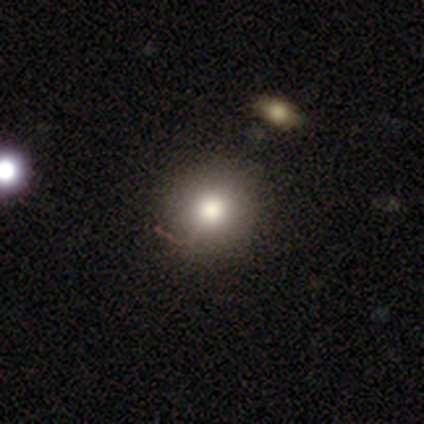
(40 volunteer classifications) smooth-or-featured: smooth: 85% | featured or disk: 8% | star or artifact: 8%
  how-rounded: round: 91% | in between: 9% | cigar-shaped: 0%
  merging: none: 57% | merger: 5% | major disturbance: 3% | minor disturbance: 0%